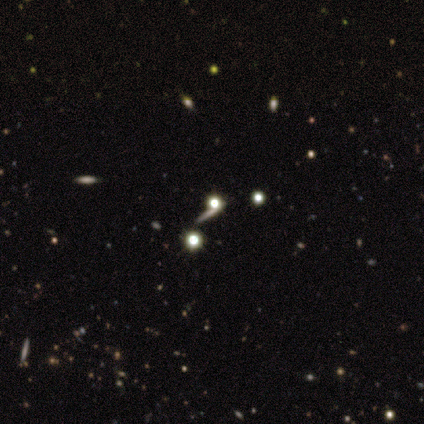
smooth-or-featured: star or artifact: 60% | smooth: 20% | featured or disk: 20%